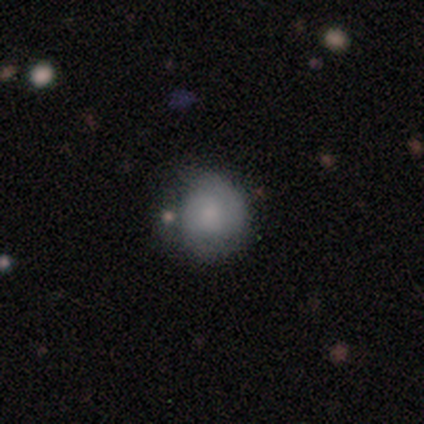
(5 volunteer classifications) A smooth galaxy with no disk features (100%) that is round (80%). Merging: none (40%).